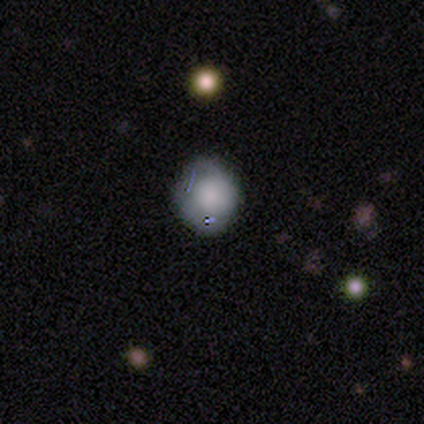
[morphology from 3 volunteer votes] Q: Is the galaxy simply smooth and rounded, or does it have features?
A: smooth — 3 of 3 (100%).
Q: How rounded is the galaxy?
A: round — 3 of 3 (100%).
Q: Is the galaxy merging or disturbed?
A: none — 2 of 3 (67%).